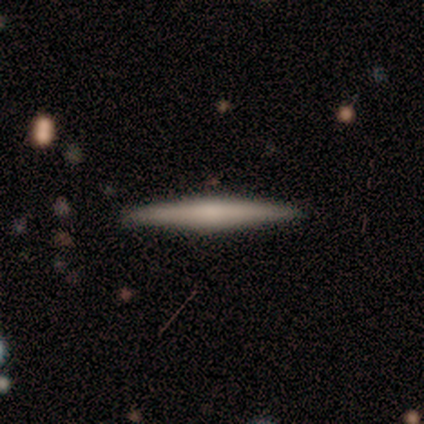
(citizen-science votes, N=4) Smooth or featured: smooth — 50% (tied with featured or disk — 50%)
How rounded: cigar-shaped — 100%
Merging: none — 75% (minor disturbance — 25%)